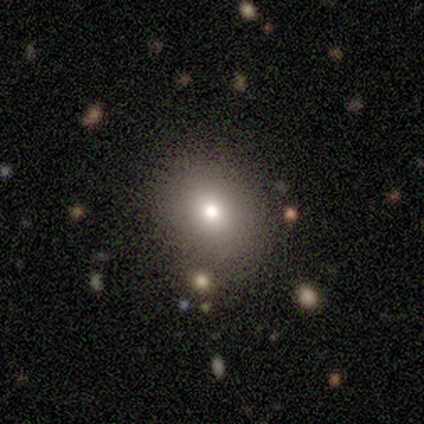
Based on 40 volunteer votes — Morphology: type=smooth (72%); roundness=round (76%); merging=none (69%).